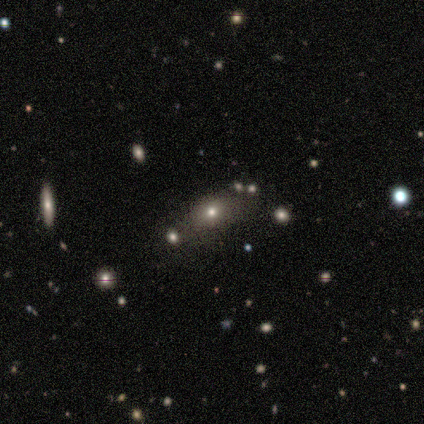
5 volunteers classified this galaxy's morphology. type=smooth (80%); roundness=in between (100%); merging=none (80%).